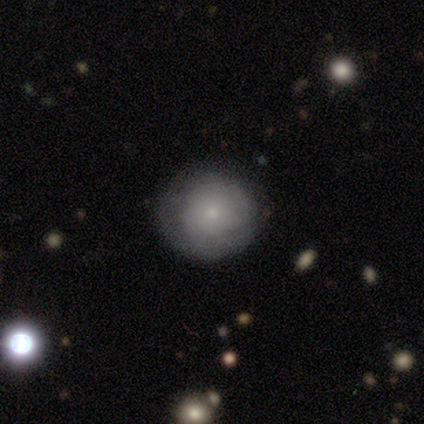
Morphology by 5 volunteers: Smooth or featured? 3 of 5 (60%) said smooth. How rounded? 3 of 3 (100%) said round. Merging? 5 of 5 (100%) said none.